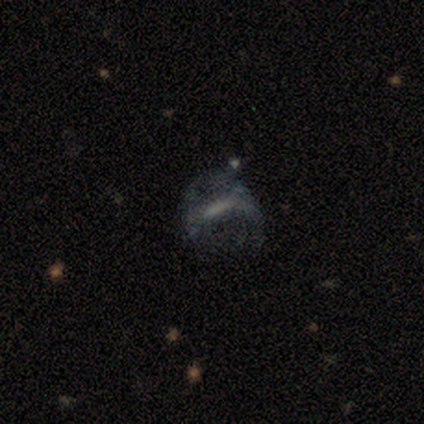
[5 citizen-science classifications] This is clearly a smooth galaxy (80%). How rounded: possibly in between (50%). Merging: likely major disturbance (60%).